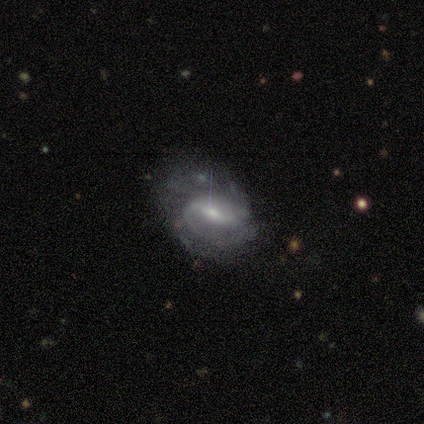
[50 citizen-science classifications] featured or disk 90%, smooth 6%, star or artifact 4%. Down the decision tree: edge-on disk — no (100%); bar — strong (51%); spiral arms — yes (91%); spiral arm count — 2 (56%); spiral winding — medium (46%); bulge size — small (53%); merging — none (50%).